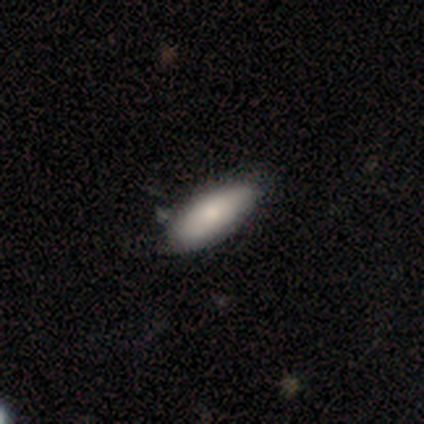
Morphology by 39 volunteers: smooth 79%, featured or disk 18%, star or artifact 3%. Down the decision tree: how rounded — in between (87%); merging — none (76%).